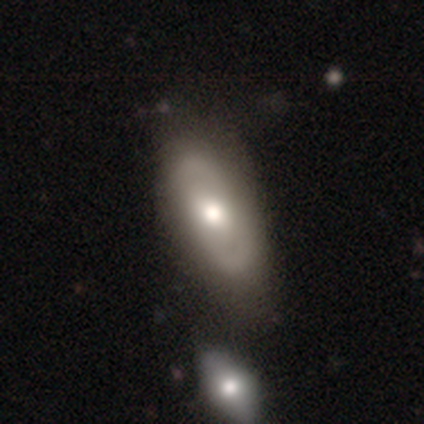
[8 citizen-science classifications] Q: Smooth or featured?
A: featured or disk (75%); runner-up: smooth (12%)
Q: Edge-on disk?
A: no (100%)
Q: Bar?
A: no (83%); runner-up: weak (17%)
Q: Spiral arms?
A: yes (50%); tied with: no (50%)
Q: Spiral winding?
A: medium (67%); runner-up: tight (33%)
Q: Spiral arm count?
A: 2 (100%)
Q: Bulge size?
A: moderate (67%); runner-up: large (33%)
Q: Merging?
A: none (86%); runner-up: merger (14%)